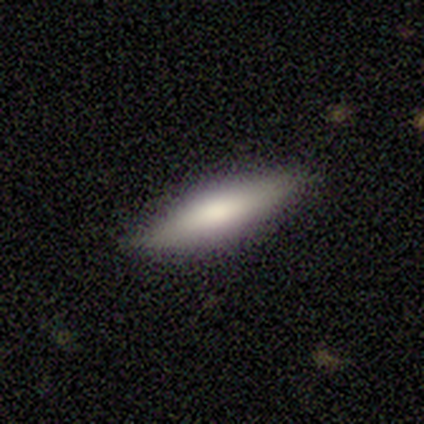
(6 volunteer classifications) This is clearly a smooth galaxy (83%). How rounded: clearly cigar-shaped (100%). Merging: clearly none (100%).